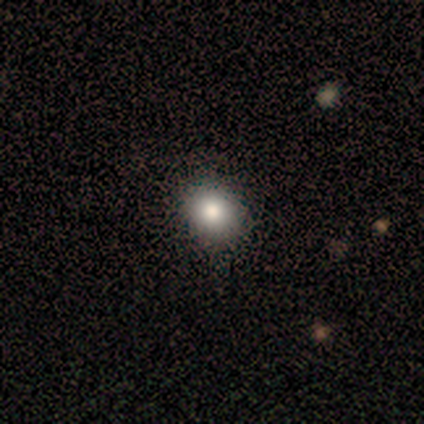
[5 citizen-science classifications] This is clearly a smooth galaxy (80%). How rounded: clearly round (100%). Merging: clearly none (100%).